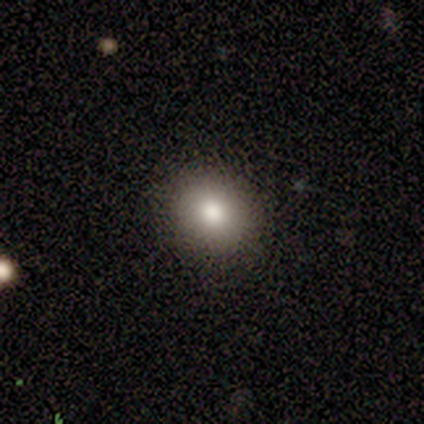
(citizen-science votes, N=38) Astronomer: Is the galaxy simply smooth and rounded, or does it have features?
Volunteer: smooth — 79%.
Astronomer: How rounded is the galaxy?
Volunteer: round — 67%.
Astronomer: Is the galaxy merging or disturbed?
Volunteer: none — 97%.